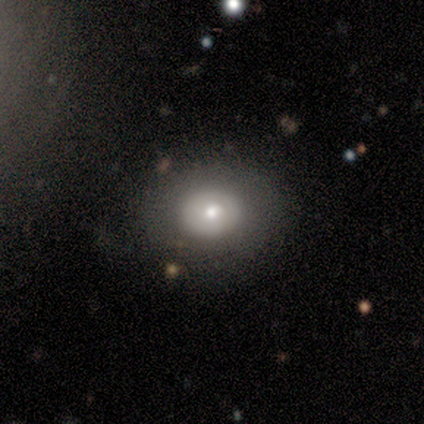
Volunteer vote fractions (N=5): This appears to be a smooth galaxy with no disk features (60%) that is round (100%). Merging: none (60%).